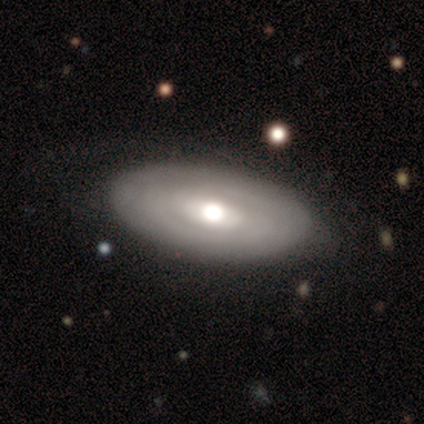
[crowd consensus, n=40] Smooth or featured? featured or disk (50%)
Edge-on disk? no (100%)
Bar? no (55%)
Spiral arms? no (60%)
Bulge size? moderate (75%)
Merging? none (84%)